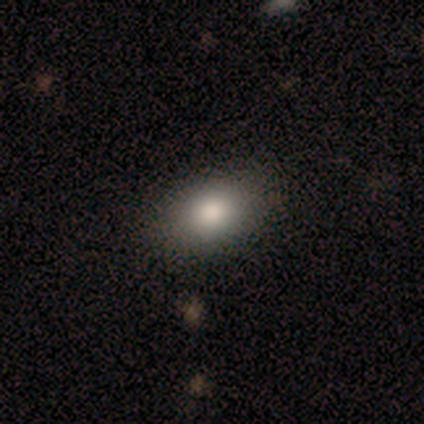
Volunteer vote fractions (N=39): Smooth or featured?
  - smooth: 79% *
  - star or artifact: 13%
  - featured or disk: 8%
How rounded?
  - in between: 84% *
  - round: 16%
  - cigar-shaped: 0%
Merging?
  - none: 88% *
  - minor disturbance: 9%
  - merger: 3%
  - major disturbance: 0%